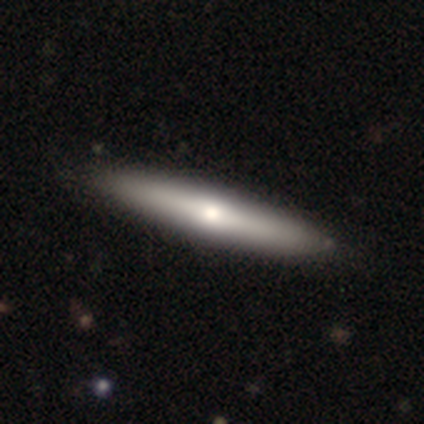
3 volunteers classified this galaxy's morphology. Smooth or featured: featured or disk — 67% (smooth — 33%)
Edge-on disk: yes — 100%
Edge-on bulge: rounded — 100%
Merging: none — 100%